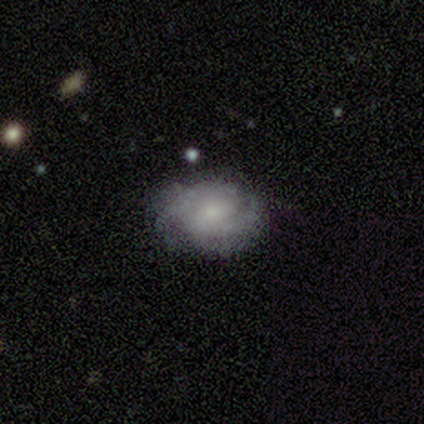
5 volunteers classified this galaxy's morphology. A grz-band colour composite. It shows a featured or disk galaxy (60%) with a weak bar (100%), 2 (50%, tied with 3) tight (50%, tied with medium) spiral arms (100%) and a moderate central bulge (50%, tied with small). Merging: none (80%).